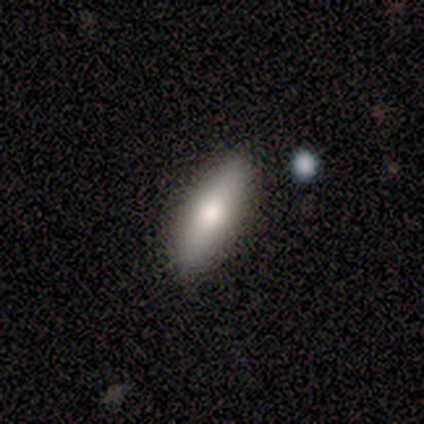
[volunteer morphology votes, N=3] smooth 100%, featured or disk 0%, star or artifact 0%. Down the decision tree: how rounded — in between (67%); merging — none (67%).